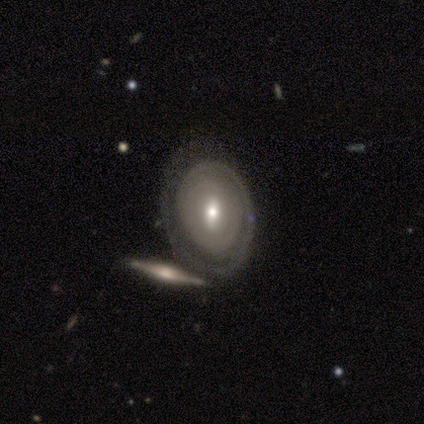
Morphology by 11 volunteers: Smooth or featured: featured or disk — 100%
Edge-on disk: no — 91% (yes — 9%)
Bar: weak — 80% (no — 20%)
Spiral arms: yes — 70% (no — 30%)
Spiral winding: tight — 86% (medium — 14%)
Spiral arm count: 1 — 71% (2 — 29%)
Bulge size: small — 60% (moderate — 30%)
Merging: none — 45% (merger — 36%)